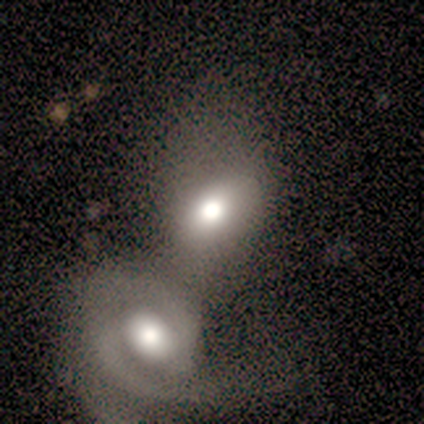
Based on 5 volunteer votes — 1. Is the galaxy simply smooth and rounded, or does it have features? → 60% featured or disk, 40% smooth, 0% star or artifact.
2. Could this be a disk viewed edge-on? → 67% no, 33% yes.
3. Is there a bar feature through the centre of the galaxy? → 50% weak (tied), 50% no (tied), 0% strong.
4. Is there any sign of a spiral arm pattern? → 100% no, 0% yes.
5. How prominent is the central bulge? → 100% moderate, 0% dominant, 0% large, 0% small, 0% none.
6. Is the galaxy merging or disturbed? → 80% merger, 20% minor disturbance, 0% none, 0% major disturbance.